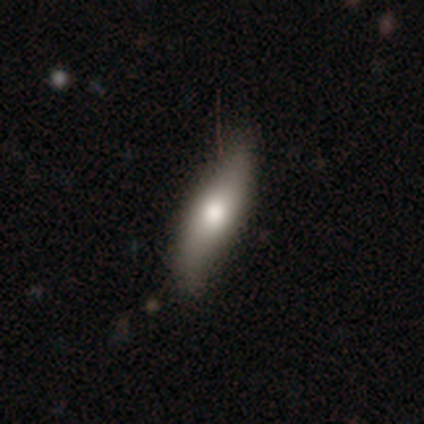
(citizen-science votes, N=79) This appears to be a smooth galaxy with no disk features (59%) that is cigar-shaped (55%). Merging: none (39%).